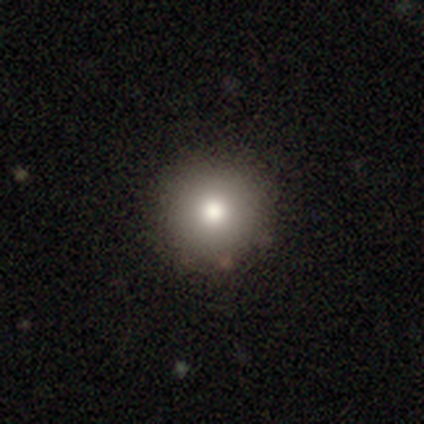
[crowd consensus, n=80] Volunteers were most divided on "merging": none: 49%, minor disturbance: 3%, merger: 3%, major disturbance: 0%. More confident: how rounded — round (95%); smooth or featured — smooth (82%).